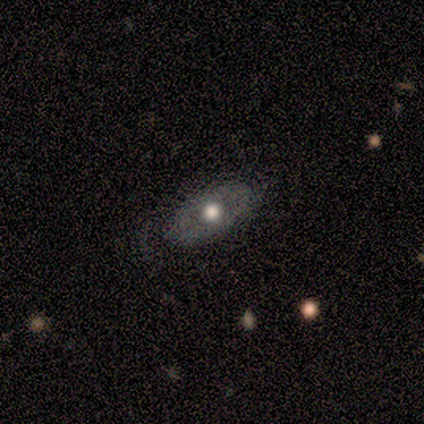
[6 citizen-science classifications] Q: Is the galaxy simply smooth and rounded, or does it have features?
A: smooth — 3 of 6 (50%, tied with featured or disk).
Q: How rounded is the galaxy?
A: in between — 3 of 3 (100%).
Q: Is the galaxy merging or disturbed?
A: none — 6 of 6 (100%).